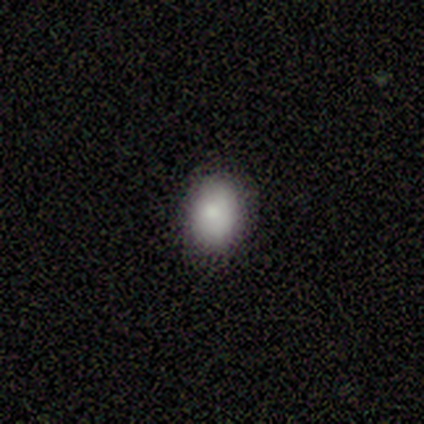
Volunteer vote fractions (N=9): This appears to be a smooth galaxy with no disk features (100%) that is in between round and cigar-shaped (100%). Merging: none (78%).